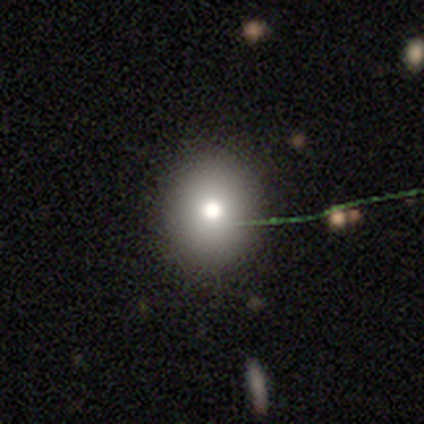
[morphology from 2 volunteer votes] This is possibly a featured or disk galaxy (50%, tied with star or artifact). It is clearly not viewed edge-on (100%). Bar: clearly no (100%). Spiral arm pattern: clearly no (100%). Central bulge: clearly moderate (100%). Merging: clearly none (100%).